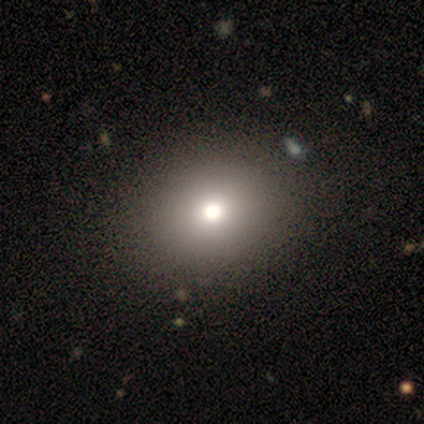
Smooth or featured: smooth — 80% (star or artifact — 20%)
How rounded: round — 75% (in between — 25%)
Merging: none — 75% (major disturbance — 25%)